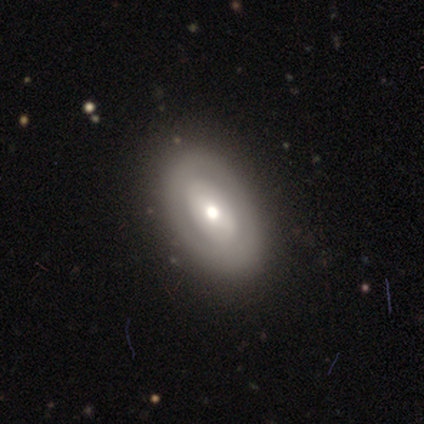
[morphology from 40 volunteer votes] A featured or disk galaxy (55%) with no bar (62%), no spiral arms (81%) and a moderate central bulge (57%). Merging: none (60%).